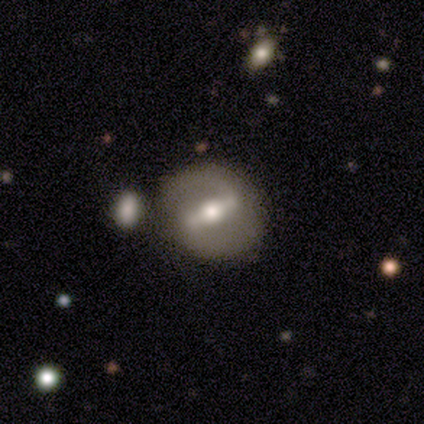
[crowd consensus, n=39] Smooth or featured: featured or disk — 87% (star or artifact — 8%)
Edge-on disk: no — 97% (yes — 3%)
Bar: strong — 58% (weak — 30%)
Spiral arms: yes — 79% (no — 21%)
Spiral winding: medium — 65% (loose — 23%)
Spiral arm count: 2 — 85% (1 — 12%)
Bulge size: moderate — 73% (large — 18%)
Merging: none — 81% (minor disturbance — 8%)